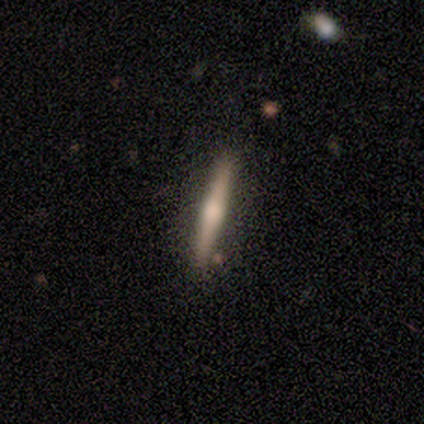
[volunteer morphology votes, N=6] Smooth or featured?
  - featured or disk: 67% *
  - smooth: 17%
  - star or artifact: 17%
Edge-on disk?
  - yes: 100% *
  - no: 0%
Edge-on bulge?
  - rounded: 100% *
  - boxy: 0%
  - none: 0%
Merging?
  - none: 80% *
  - minor disturbance: 20%
  - major disturbance: 0%
  - merger: 0%